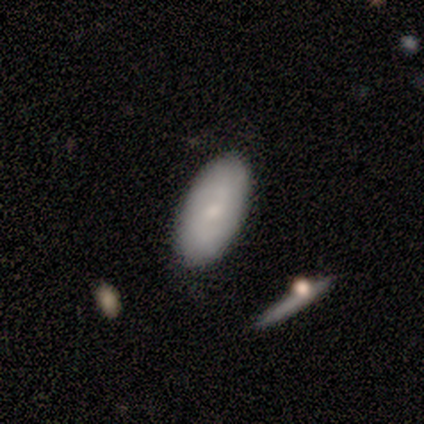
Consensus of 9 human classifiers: smooth_or_featured: smooth (p=0.78) [alt: featured or disk p=0.22]
how_rounded: in between (p=0.57) [alt: cigar-shaped p=0.43]
merging: none (p=1.00)